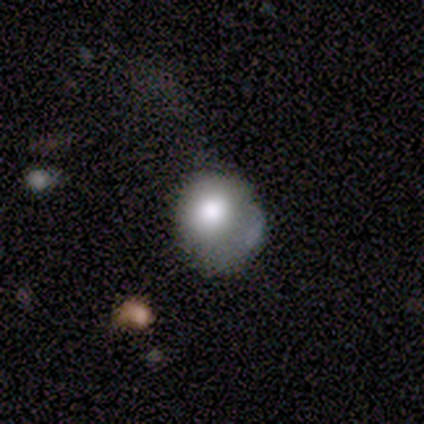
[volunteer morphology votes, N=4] smooth 50% (tied), featured or disk 50% (tied), star or artifact 0%. Down the decision tree: how rounded — round (100%); merging — none (50%).